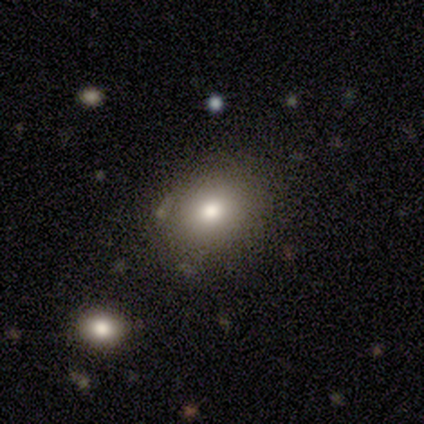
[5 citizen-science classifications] Q: Smooth or featured?
A: smooth (80%); runner-up: featured or disk (20%)
Q: How rounded?
A: round (50%); tied with: in between (50%)
Q: Merging?
A: none (80%); runner-up: major disturbance (20%)